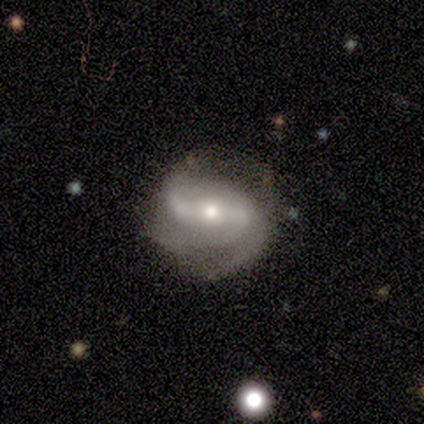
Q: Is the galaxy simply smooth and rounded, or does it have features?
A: featured or disk — 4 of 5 (80%).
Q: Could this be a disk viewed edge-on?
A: no — 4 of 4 (100%).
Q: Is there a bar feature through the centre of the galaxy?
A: strong — 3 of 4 (75%).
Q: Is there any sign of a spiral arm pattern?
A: yes — 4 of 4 (100%).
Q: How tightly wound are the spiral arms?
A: medium — 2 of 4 (50%).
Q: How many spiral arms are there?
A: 2 — 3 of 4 (75%).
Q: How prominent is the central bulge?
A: small — 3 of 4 (75%).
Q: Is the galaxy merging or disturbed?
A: minor disturbance — 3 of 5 (60%).